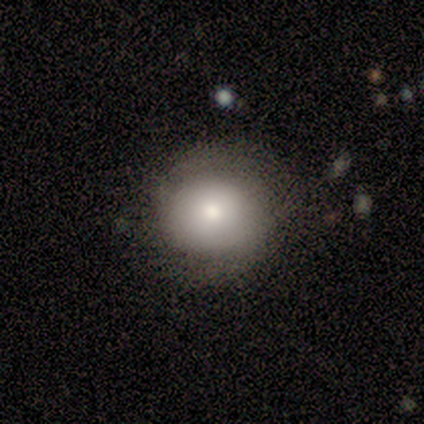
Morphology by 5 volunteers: type=smooth (60%); roundness=round (100%); merging=none (75%).